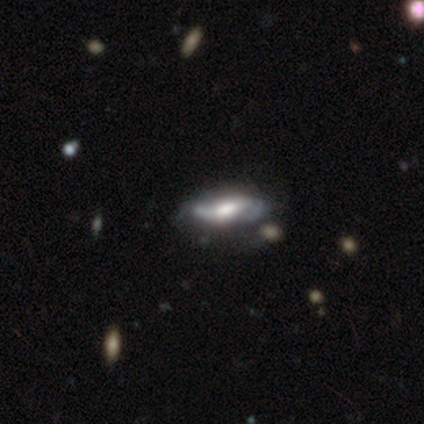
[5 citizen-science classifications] A featured or disk galaxy (80%) with a strong bar (33%, tied with weak and no), 2 (50%, tied with can't tell) loose (100%) spiral arms (67%) and a moderate central bulge (67%). Merging: none (75%).